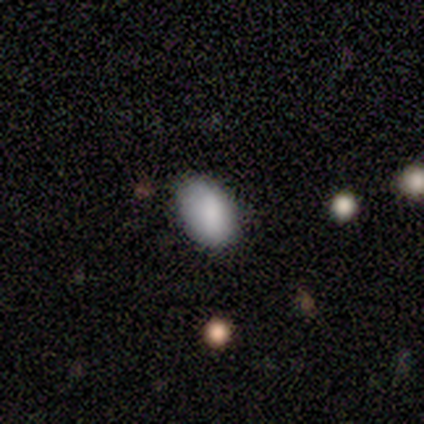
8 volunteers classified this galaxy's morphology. smooth-or-featured: smooth: 75% | star or artifact: 25% | featured or disk: 0%
  how-rounded: in between: 100% | round: 0% | cigar-shaped: 0%
  merging: none: 50% (tied) | minor disturbance: 50% (tied) | major disturbance: 0% | merger: 0%